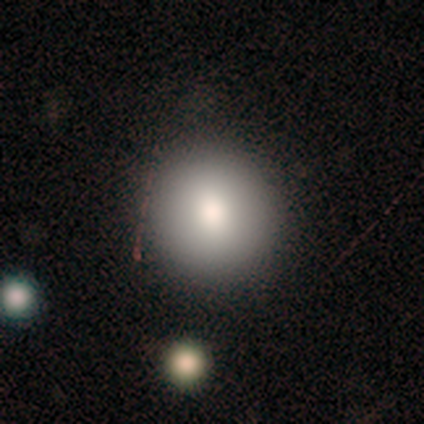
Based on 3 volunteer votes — Smooth or featured: smooth — 67% (featured or disk — 33%)
How rounded: round — 100%
Merging: none — 67% (minor disturbance — 33%)